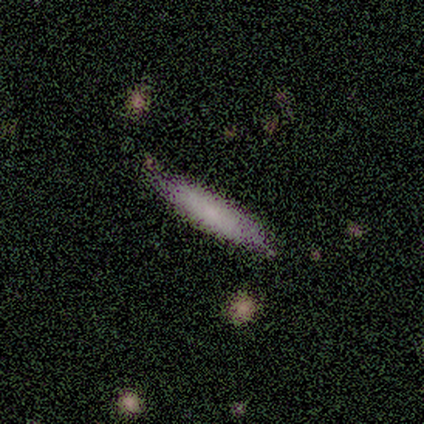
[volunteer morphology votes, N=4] type=smooth (100%); roundness=cigar-shaped (100%); merging=none (75%).